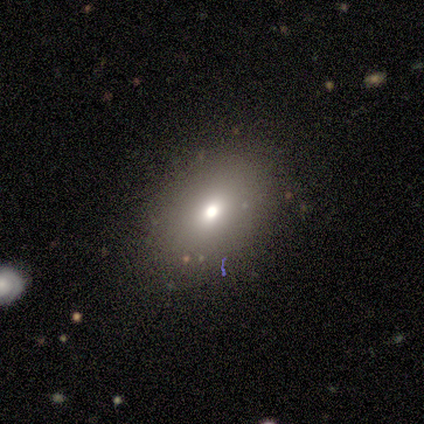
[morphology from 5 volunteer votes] smooth_or_featured: smooth (p=0.60) [alt: featured or disk p=0.20]
how_rounded: round (p=0.67) [alt: in between p=0.33]
merging: none (p=0.75) [alt: minor disturbance p=0.25]